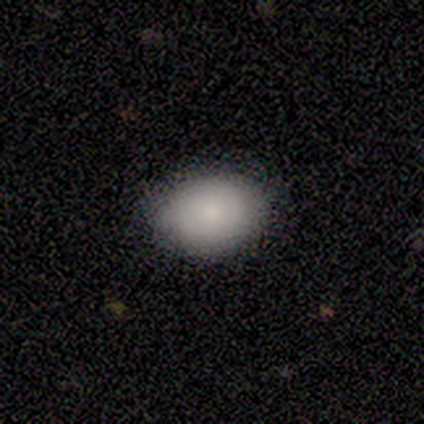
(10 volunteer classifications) Smooth or featured?
  - smooth: 100% *
  - featured or disk: 0%
  - star or artifact: 0%
How rounded?
  - in between: 70% *
  - round: 30%
  - cigar-shaped: 0%
Merging?
  - none: 80% *
  - minor disturbance: 10%
  - merger: 10%
  - major disturbance: 0%